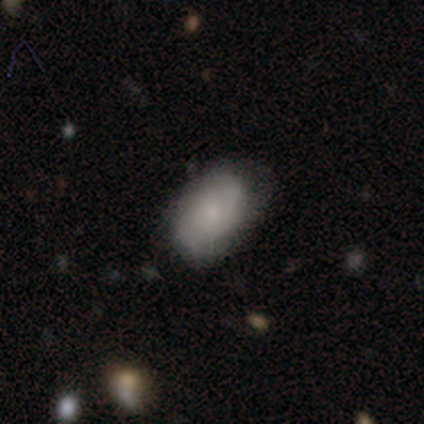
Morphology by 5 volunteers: smooth 80%, featured or disk 20%, star or artifact 0%. Down the decision tree: how rounded — in between (100%); merging — none (80%).